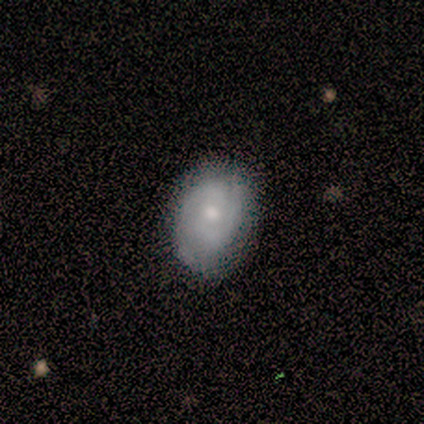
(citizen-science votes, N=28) Smooth or featured? 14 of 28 (50%) said featured or disk. Edge-on disk? 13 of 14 (93%) said no. Bar? 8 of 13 (62%) said no. Spiral arms? 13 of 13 (100%) said yes. Spiral winding? 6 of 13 (46%, tied with medium) said tight. Spiral arm count? 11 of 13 (85%) said 2. Bulge size? 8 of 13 (62%) said moderate. Merging? 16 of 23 (70%) said none.